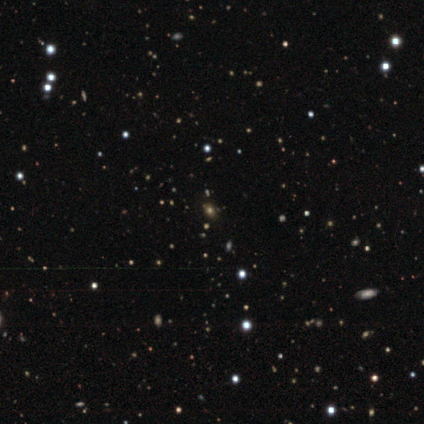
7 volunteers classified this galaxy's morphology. smooth 43%, featured or disk 29%, star or artifact 29%. Down the decision tree: how rounded — round (67%); merging — none (80%).